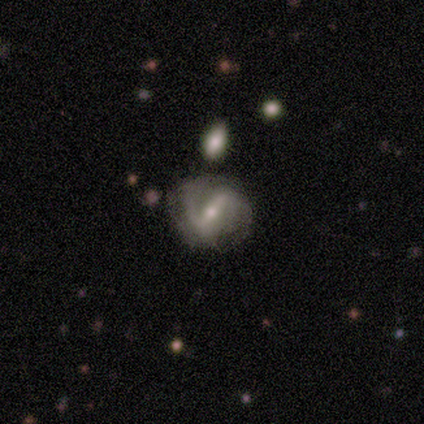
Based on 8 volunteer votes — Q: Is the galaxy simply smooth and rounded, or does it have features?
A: featured or disk — 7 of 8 (88%).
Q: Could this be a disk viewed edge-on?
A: no — 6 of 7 (86%).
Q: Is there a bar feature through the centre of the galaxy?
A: strong — 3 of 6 (50%, tied with weak).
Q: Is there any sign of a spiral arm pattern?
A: yes — 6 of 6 (100%).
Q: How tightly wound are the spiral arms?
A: tight — 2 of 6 (33%, tied with medium and loose).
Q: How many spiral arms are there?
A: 2 — 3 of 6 (50%).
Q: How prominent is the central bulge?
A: small — 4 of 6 (67%).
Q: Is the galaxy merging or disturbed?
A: none — 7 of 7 (100%).